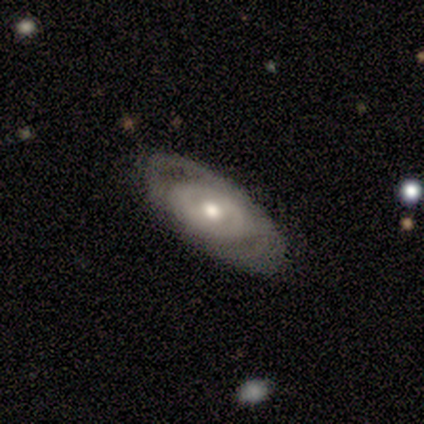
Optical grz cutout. It shows a featured or disk galaxy (60%) with no bar (100%), 2 (50%, tied with can't tell) tight (100%) spiral arms (67%) and a moderate central bulge (100%). Merging: none (60%).